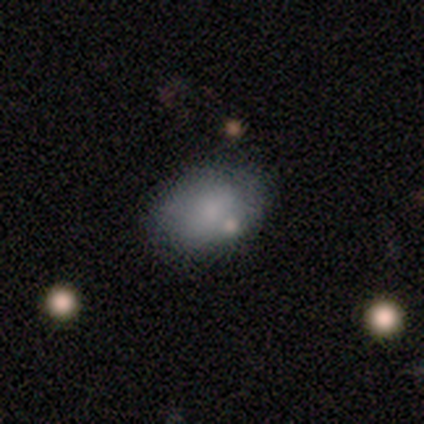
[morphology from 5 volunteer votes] Smooth or featured? 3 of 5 (60%) said smooth. How rounded? 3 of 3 (100%) said in between. Merging? 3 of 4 (75%) said none.